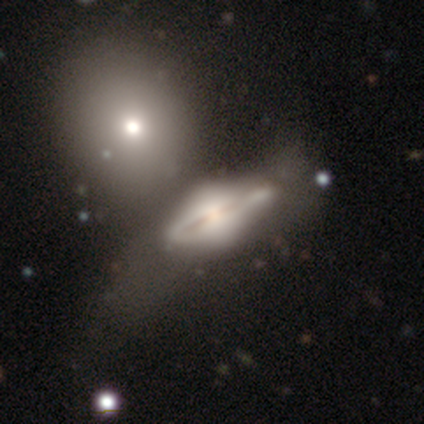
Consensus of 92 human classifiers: This appears to be a featured or disk galaxy (79%) with no bar (82%), no spiral arms (66%) and a moderate central bulge (37%). Merging: none (35%).